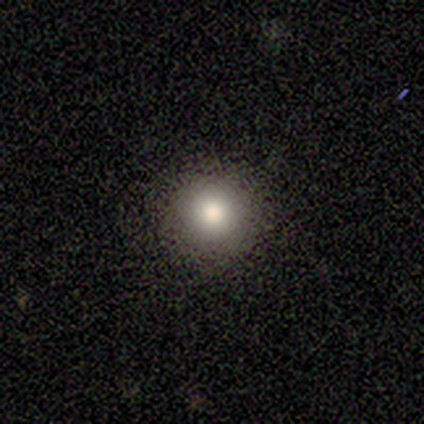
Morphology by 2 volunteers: This is clearly a smooth galaxy (100%). How rounded: possibly round (50%, tied with in between). Merging: clearly none (100%).